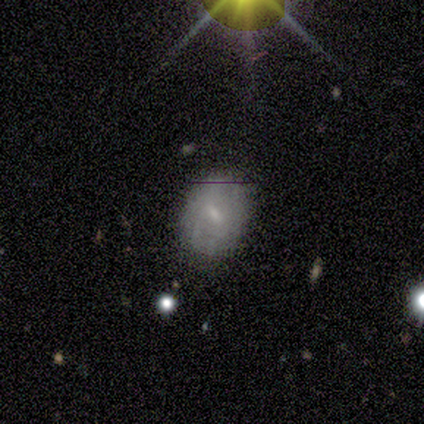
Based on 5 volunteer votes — smooth-or-featured: smooth: 80% | featured or disk: 20% | star or artifact: 0%
  how-rounded: in between: 75% | round: 25% | cigar-shaped: 0%
  merging: none: 80% | minor disturbance: 20% | major disturbance: 0% | merger: 0%